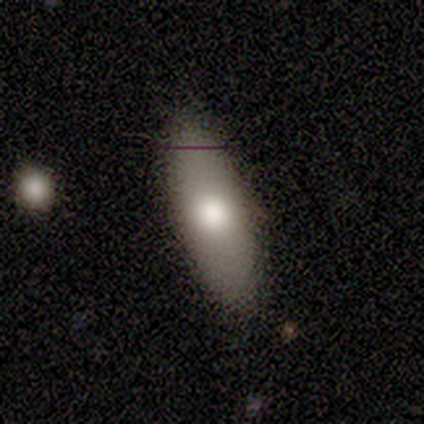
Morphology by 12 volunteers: A smooth galaxy with no disk features (75%) that is in between round and cigar-shaped (78%).

Vote fractions:
- Smooth or featured? smooth: 75% / star or artifact: 17% / featured or disk: 8%
- How rounded? in between: 78% / cigar-shaped: 22% / round: 0%
- Merging? none: 100% / minor disturbance: 0% / major disturbance: 0% / merger: 0%